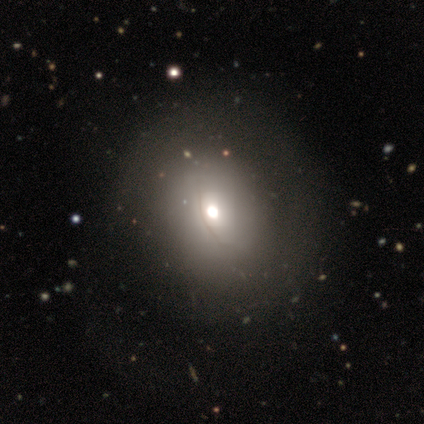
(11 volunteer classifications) Smooth or featured?
  - smooth: 82% *
  - featured or disk: 9%
  - star or artifact: 9%
How rounded?
  - round: 44% * (tied)
  - in between: 44% * (tied)
  - cigar-shaped: 11%
Merging?
  - none: 80% *
  - minor disturbance: 10%
  - major disturbance: 10%
  - merger: 0%